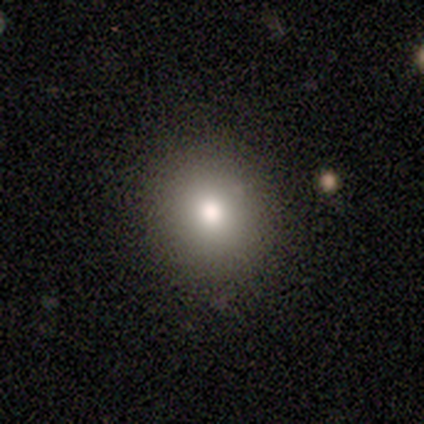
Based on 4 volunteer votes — smooth 100%, featured or disk 0%, star or artifact 0%. Down the decision tree: how rounded — round (75%); merging — none (75%).